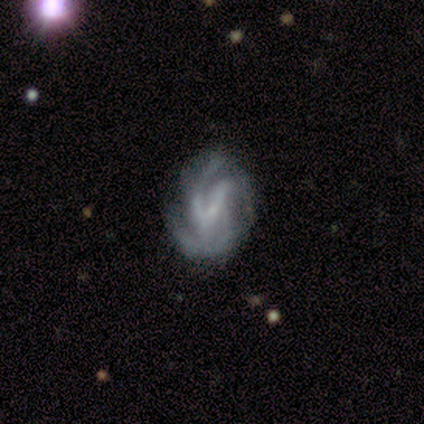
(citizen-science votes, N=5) Overall: featured or disk (60%; smooth 20%). Edge-on disk: no (100%). Bar: weak (67%; no 33%). Spiral arms: yes (100%). Spiral arm count: 2 (33%, tied with 3 and 4). Spiral winding: tight (67%; medium 33%). Bulge size: small (100%). Merging: none (75%).